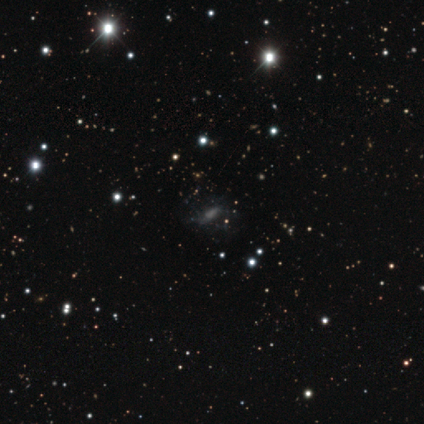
A featured or disk galaxy (60%) with a strong bar (33%, tied with weak and no), no spiral arms (67%) and no central bulge (67%). Merging: minor disturbance (67%).